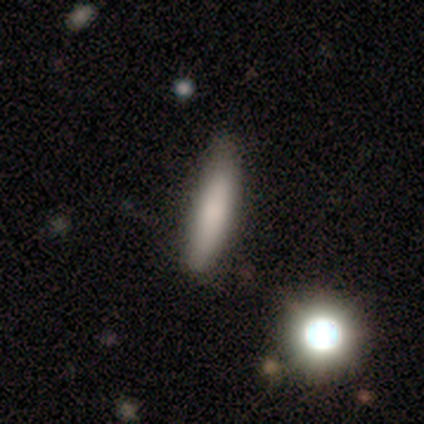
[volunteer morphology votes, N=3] smooth 100%, featured or disk 0%, star or artifact 0%. Down the decision tree: how rounded — cigar-shaped (67%); merging — none (67%).